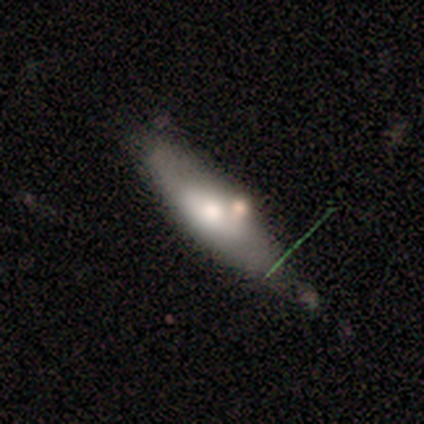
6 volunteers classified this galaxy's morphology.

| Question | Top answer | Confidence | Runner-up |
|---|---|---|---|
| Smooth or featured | smooth | 50% | tied: featured or disk (50%) |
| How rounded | in between | 67% | cigar-shaped (33%) |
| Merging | none | 50% | minor disturbance (33%) |